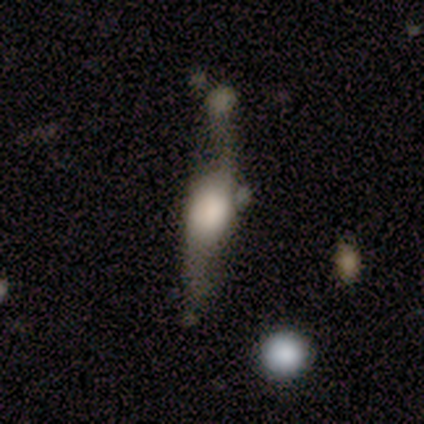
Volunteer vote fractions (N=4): Morphology: type=smooth (50%, tied with featured or disk); roundness=in between (50%, tied with cigar-shaped); merging=none (75%).